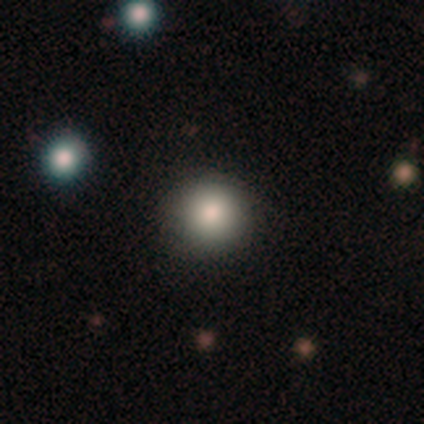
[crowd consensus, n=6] Volunteers were most divided on "smooth or featured": smooth: 67%, featured or disk: 17%, star or artifact: 17%. More confident: how rounded — round (100%); merging — none (80%).